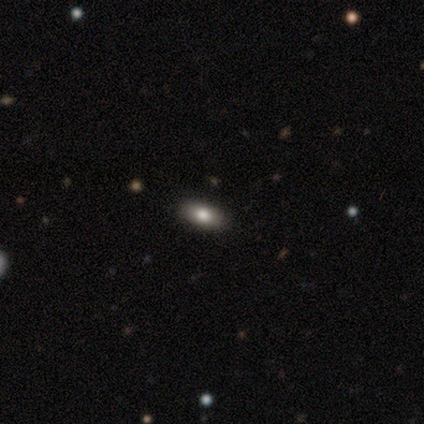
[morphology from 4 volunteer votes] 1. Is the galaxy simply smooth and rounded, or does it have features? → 75% smooth, 25% featured or disk, 0% star or artifact.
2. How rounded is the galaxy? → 100% in between, 0% round, 0% cigar-shaped.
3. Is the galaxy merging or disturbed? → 100% none, 0% minor disturbance, 0% major disturbance, 0% merger.